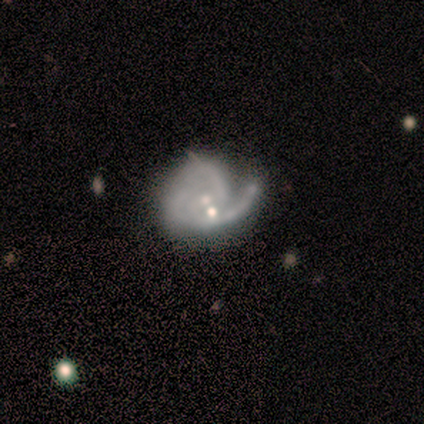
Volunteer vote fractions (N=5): smooth-or-featured: featured or disk: 80% | smooth: 20% | star or artifact: 0%
  disk-edge-on: no: 100% | yes: 0%
    bar: weak: 50% (tied) | no: 50% (tied) | strong: 0%
    has-spiral-arms: yes: 100% | no: 0%
      spiral-winding: loose: 75% | medium: 25% | tight: 0%
      spiral-arm-count: 2: 50% | 3: 25% | can't tell: 25% | 1: 0% | 4: 0% | more than 4: 0%
    bulge-size: small: 75% | none: 25% | dominant: 0% | large: 0% | moderate: 0%
  merging: none: 60% | minor disturbance: 20% | major disturbance: 20% | merger: 0%